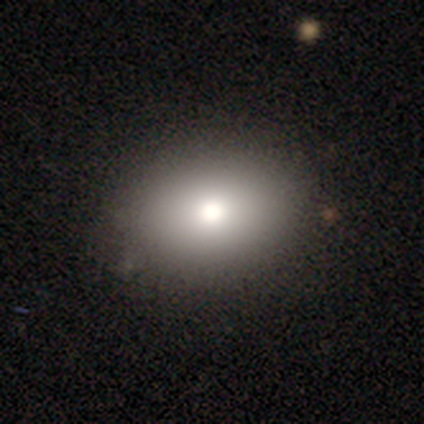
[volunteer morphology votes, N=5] Overall: smooth (80%). How rounded: round (50%, tied with in between). Merging: none (100%).